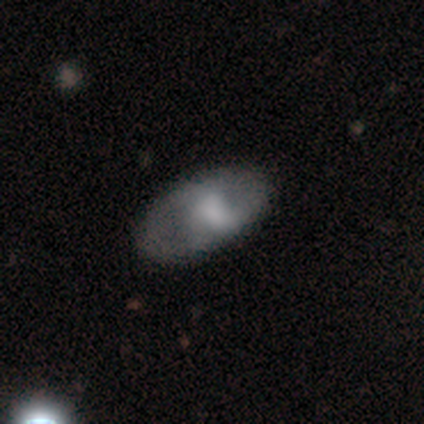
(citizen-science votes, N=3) featured or disk 67%, smooth 33%, star or artifact 0%. Down the decision tree: edge-on disk — no (100%); bar — weak (100%); spiral arms — yes (50%, tied with no); spiral arm count — 2 (100%); spiral winding — loose (100%); bulge size — none (100%); merging — none (67%).